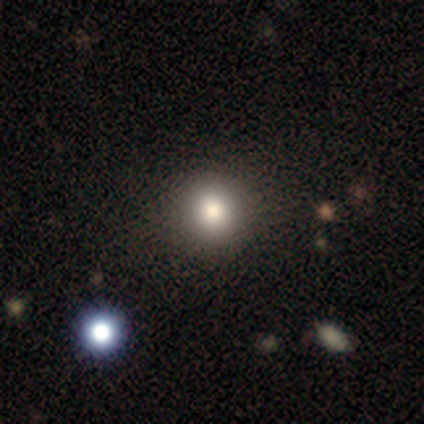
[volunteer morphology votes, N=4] Consensus on every question: smooth or featured — smooth (100%); how rounded — round (100%); merging — none (100%).